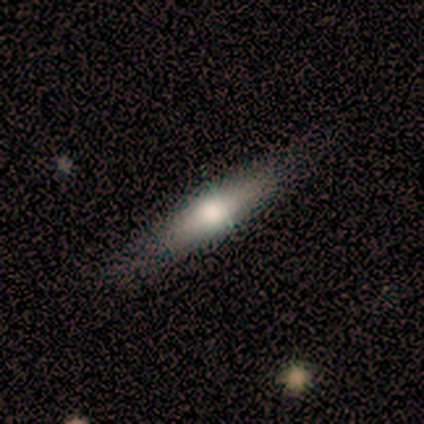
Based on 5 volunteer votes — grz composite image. It shows a smooth galaxy with no disk features (100%) that is cigar-shaped (60%). Merging: none (60%).